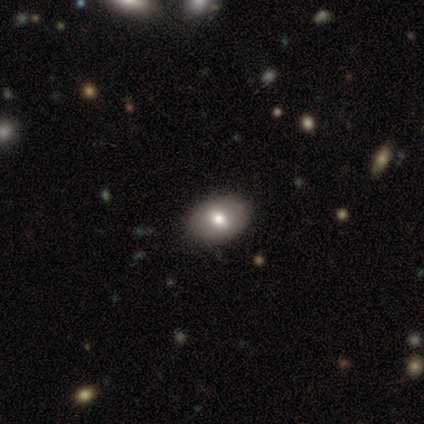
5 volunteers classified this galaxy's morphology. Smooth or featured: smooth — 40% (tied with featured or disk — 40%)
How rounded: round — 50% (tied with in between — 50%)
Merging: none — 100%